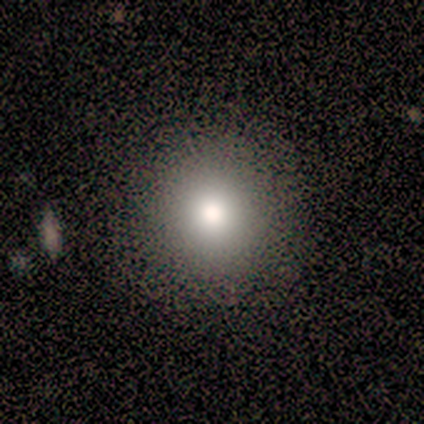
smooth 67%, featured or disk 22%, star or artifact 11%. Down the decision tree: how rounded — round (83%); merging — none (88%).